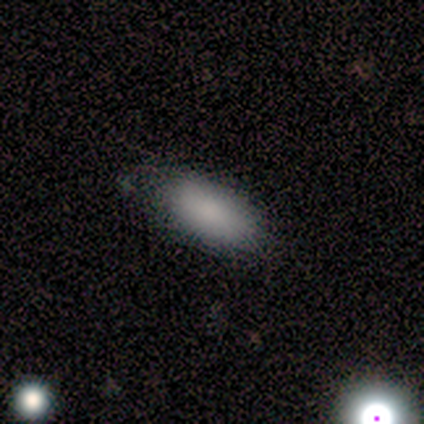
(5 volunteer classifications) smooth-or-featured: smooth: 80% | star or artifact: 20% | featured or disk: 0%
  how-rounded: in between: 100% | round: 0% | cigar-shaped: 0%
  merging: none: 100% | minor disturbance: 0% | major disturbance: 0% | merger: 0%